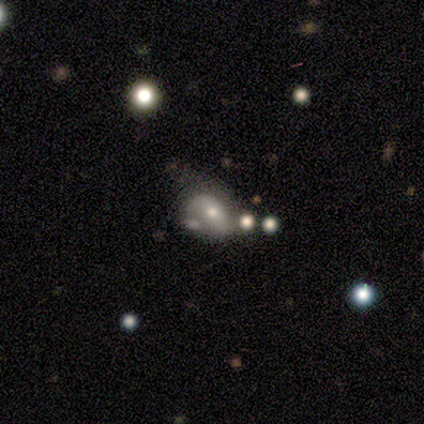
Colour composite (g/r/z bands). It shows a smooth galaxy with no disk features (60%) that is in between round and cigar-shaped (67%). Merging: major disturbance (50%).